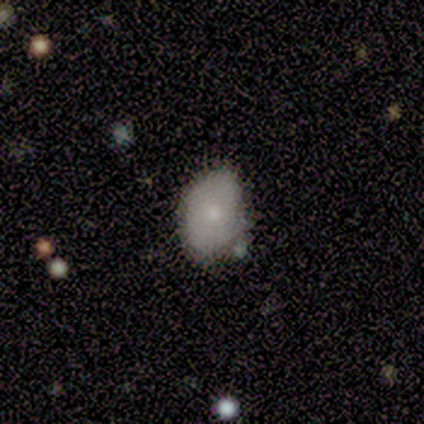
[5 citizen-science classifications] smooth_or_featured: featured or disk (p=0.60) [alt: smooth p=0.20]
disk_edge_on: no (p=1.00)
bar: no (p=1.00)
has_spiral_arms: no (p=1.00)
bulge_size: small (p=0.67) [alt: moderate p=0.33]
merging: minor disturbance (p=0.50) [alt: none p=0.25]